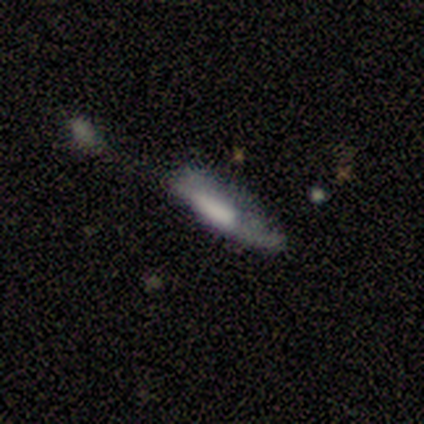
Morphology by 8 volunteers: smooth-or-featured: smooth: 50% | featured or disk: 38% | star or artifact: 12%
  how-rounded: in between: 50% (tied) | cigar-shaped: 50% (tied) | round: 0%
  merging: minor disturbance: 43% | major disturbance: 29% | none: 14% | merger: 14%